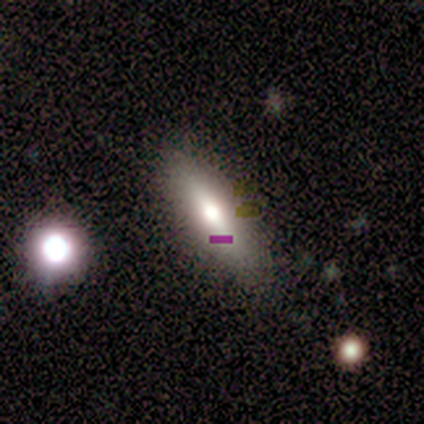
Smooth or featured: smooth — 80% (featured or disk — 20%)
How rounded: in between — 50% (tied with cigar-shaped — 50%)
Merging: none — 100%